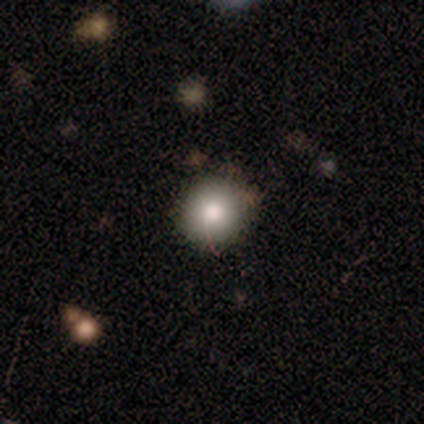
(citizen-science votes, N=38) This is likely a smooth galaxy (79%). How rounded: clearly round (90%). Merging: clearly none (91%).